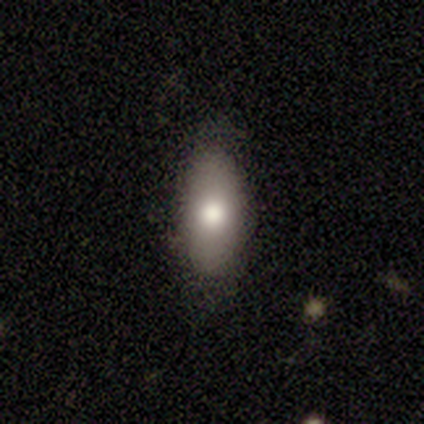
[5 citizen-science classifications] Overall: smooth (80%). How rounded: in between (75%). Merging: none (80%).